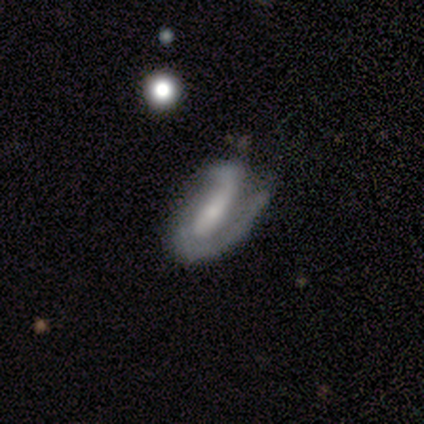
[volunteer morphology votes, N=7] smooth-or-featured: featured or disk: 71% | smooth: 14% | star or artifact: 14%
  disk-edge-on: no: 100% | yes: 0%
    bar: weak: 60% | no: 40% | strong: 0%
    has-spiral-arms: yes: 100% | no: 0%
      spiral-winding: medium: 60% | tight: 40% | loose: 0%
      spiral-arm-count: 2: 80% | 1: 20% | 3: 0% | 4: 0% | more than 4: 0% | can't tell: 0%
    bulge-size: small: 60% | moderate: 20% | none: 20% | dominant: 0% | large: 0%
  merging: none: 67% | minor disturbance: 17% | major disturbance: 17% | merger: 0%